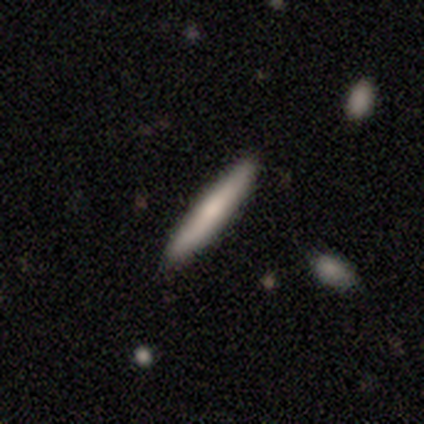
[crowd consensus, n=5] smooth-or-featured: smooth: 60% | featured or disk: 40% | star or artifact: 0%
  how-rounded: cigar-shaped: 100% | round: 0% | in between: 0%
  merging: none: 80% | minor disturbance: 20% | major disturbance: 0% | merger: 0%